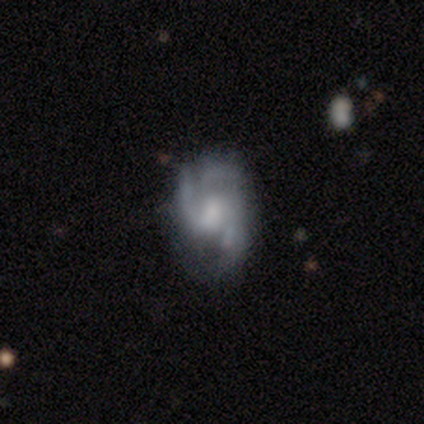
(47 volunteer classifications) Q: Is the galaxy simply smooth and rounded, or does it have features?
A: featured or disk — 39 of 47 (83%).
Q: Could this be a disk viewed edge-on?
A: no — 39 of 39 (100%).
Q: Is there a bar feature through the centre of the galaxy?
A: weak — 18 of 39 (46%, tied with no).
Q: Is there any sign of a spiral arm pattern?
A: yes — 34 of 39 (87%).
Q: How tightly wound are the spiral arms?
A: medium — 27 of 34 (79%).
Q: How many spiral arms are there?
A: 3 — 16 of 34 (47%).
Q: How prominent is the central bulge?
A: moderate — 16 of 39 (41%).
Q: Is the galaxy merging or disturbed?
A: none — 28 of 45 (62%).